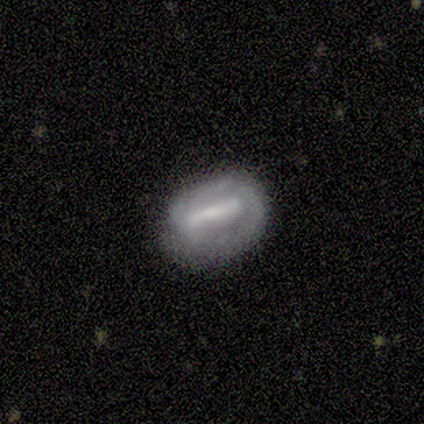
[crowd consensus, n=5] Overall: smooth (60%; featured or disk 20%). How rounded: in between (100%). Merging: minor disturbance (75%).